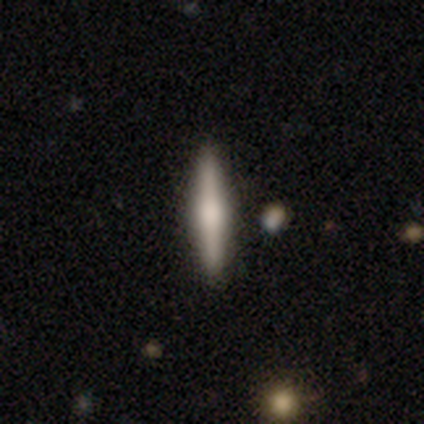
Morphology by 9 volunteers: Smooth or featured? 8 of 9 (89%) said featured or disk. Edge-on disk? 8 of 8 (100%) said yes. Edge-on bulge? 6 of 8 (75%) said rounded. Merging? 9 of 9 (100%) said none.